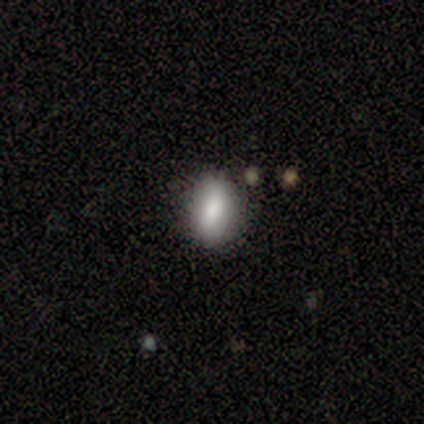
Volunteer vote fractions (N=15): Smooth or featured: smooth — 87% (featured or disk — 13%)
How rounded: in between — 77% (cigar-shaped — 15%)
Merging: none — 87% (minor disturbance — 7%)